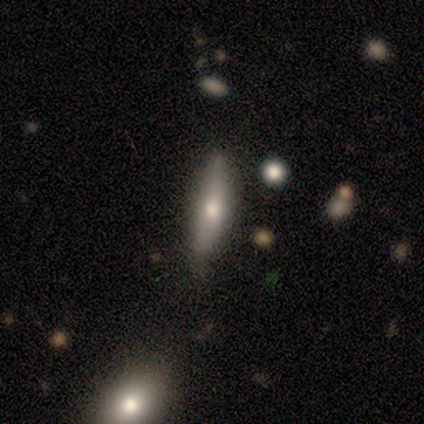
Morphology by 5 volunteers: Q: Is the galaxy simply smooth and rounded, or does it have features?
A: smooth — 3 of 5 (60%).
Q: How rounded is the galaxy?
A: cigar-shaped — 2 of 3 (67%).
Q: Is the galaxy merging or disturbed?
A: minor disturbance — 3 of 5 (60%).